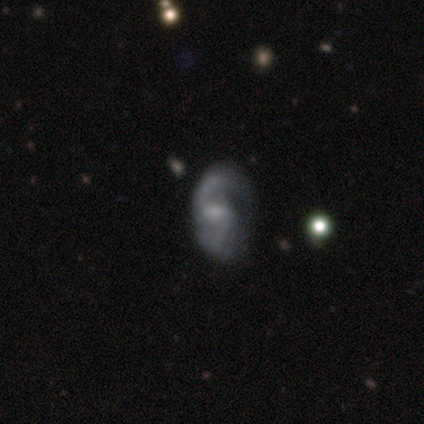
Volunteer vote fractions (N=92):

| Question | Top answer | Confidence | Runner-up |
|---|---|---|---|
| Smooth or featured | featured or disk | 86% | smooth (11%) |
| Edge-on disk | no | 97% | yes (3%) |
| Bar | weak | 55% | no (39%) |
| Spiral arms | yes | 94% | no (6%) |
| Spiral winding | loose | 49% | medium (46%) |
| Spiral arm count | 2 | 68% | 1 (19%) |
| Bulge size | small | 58% | moderate (26%) |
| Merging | none | 46% | minor disturbance (28%) |